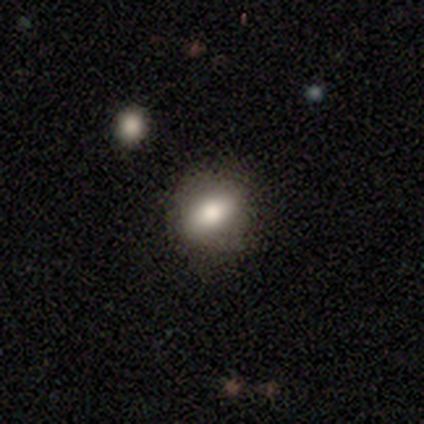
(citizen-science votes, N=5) smooth_or_featured: smooth (p=0.60) [alt: featured or disk p=0.20]
how_rounded: in between (p=0.67) [alt: round p=0.33]
merging: none (p=1.00)